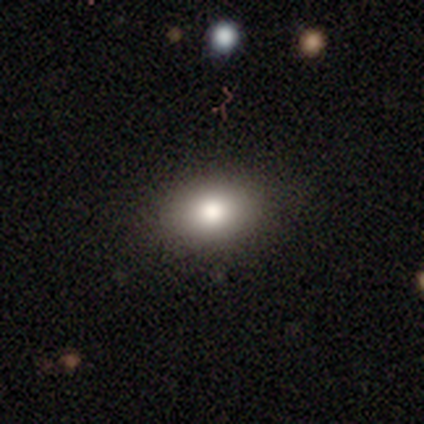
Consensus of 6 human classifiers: Smooth or featured? smooth (83%)
How rounded? in between (60%)
Merging? none (80%)